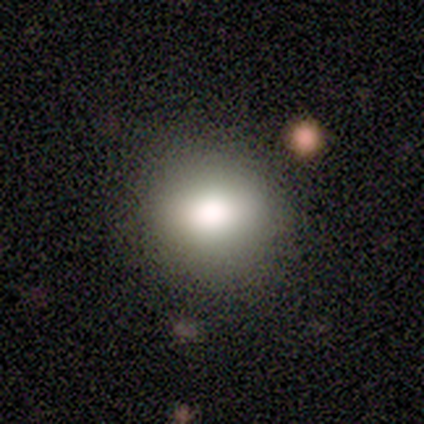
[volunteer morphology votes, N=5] smooth_or_featured: smooth (p=0.80) [alt: star or artifact p=0.20]
how_rounded: round (p=0.50) [tied with: in between p=0.50]
merging: none (p=1.00)